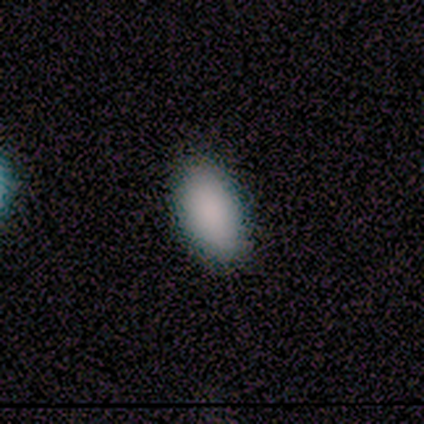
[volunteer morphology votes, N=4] Q: Smooth or featured?
A: smooth (100%)
Q: How rounded?
A: in between (100%)
Q: Merging?
A: none (75%); runner-up: minor disturbance (25%)